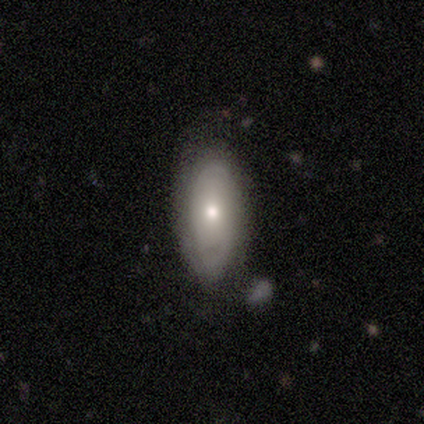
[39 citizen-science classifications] A featured or disk galaxy (49%) with no bar (100%), tight (73%) spiral arms (58%) and a moderate central bulge (74%). Merging: none (69%).